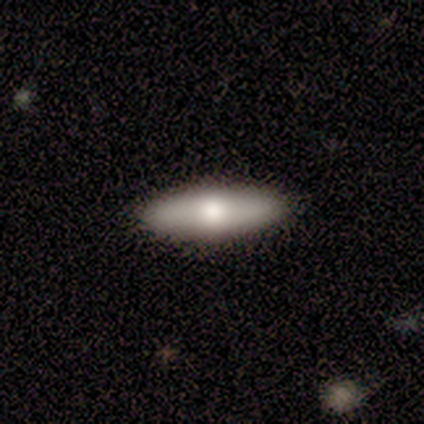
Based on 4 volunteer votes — Smooth or featured: featured or disk — 75% (smooth — 25%)
Edge-on disk: yes — 100%
Edge-on bulge: rounded — 100%
Merging: minor disturbance — 50% (none — 25%)